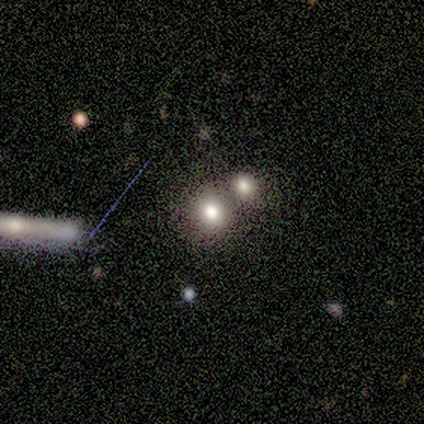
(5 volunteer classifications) A smooth galaxy with no disk features (80%) that is round (100%). Merging: none (80%).